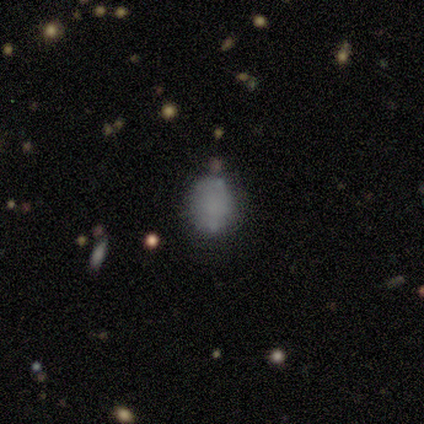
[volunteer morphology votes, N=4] smooth-or-featured: smooth: 50% (tied) | star or artifact: 50% (tied) | featured or disk: 0%
  how-rounded: round: 50% (tied) | in between: 50% (tied) | cigar-shaped: 0%
  merging: none: 50% (tied) | merger: 50% (tied) | minor disturbance: 0% | major disturbance: 0%